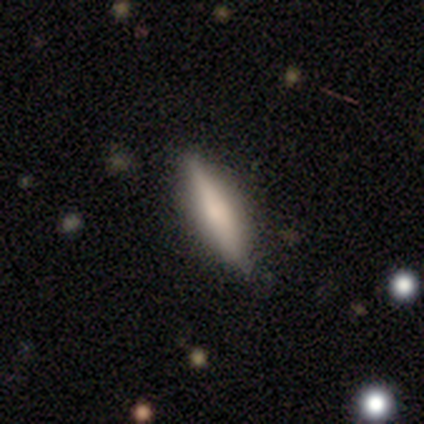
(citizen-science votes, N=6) smooth 83%, featured or disk 17%, star or artifact 0%. Down the decision tree: how rounded — cigar-shaped (100%); merging — none (100%).